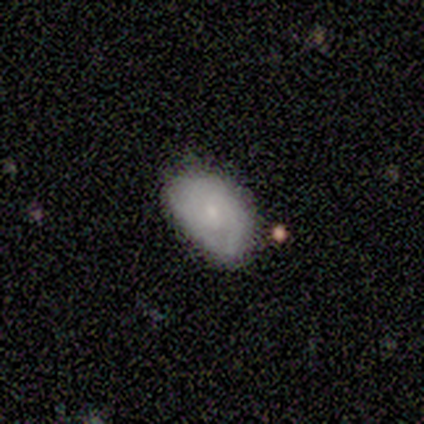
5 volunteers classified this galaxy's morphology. This is likely a smooth galaxy (60%). How rounded: clearly in between (100%). Merging: clearly none (100%).